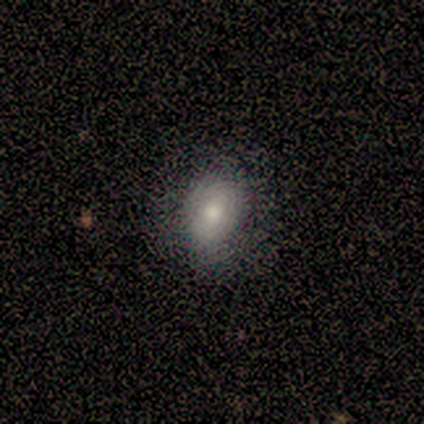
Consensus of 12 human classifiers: Smooth or featured: smooth — 50% (featured or disk — 33%)
How rounded: in between — 83% (round — 17%)
Merging: none — 80% (minor disturbance — 20%)